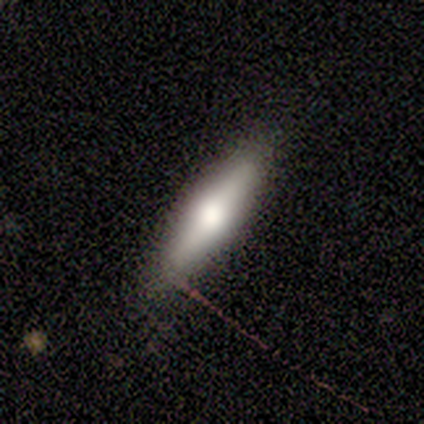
Volunteers were most divided on "smooth or featured": smooth: 60%, featured or disk: 40%, star or artifact: 0%. More confident: merging — none (100%); how rounded — cigar-shaped (67%).